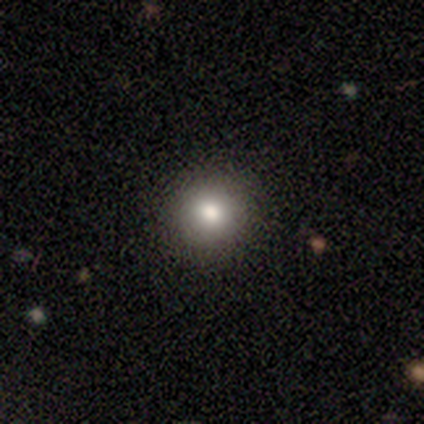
smooth 75%, star or artifact 25%, featured or disk 0%. Down the decision tree: how rounded — round (100%); merging — none (67%).